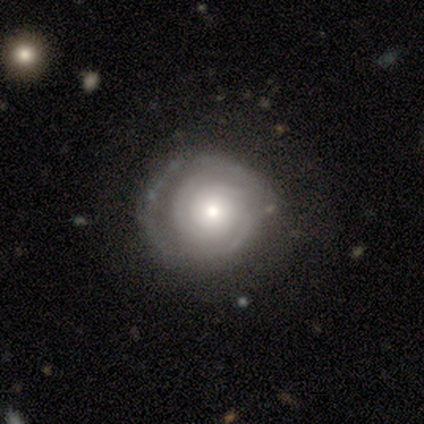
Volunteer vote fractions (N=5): featured or disk 100%, smooth 0%, star or artifact 0%. Down the decision tree: edge-on disk — no (100%); bar — no (100%); spiral arms — yes (100%); spiral arm count — 3 (40%, tied with 4); spiral winding — tight (100%); bulge size — moderate (40%, tied with small); merging — none (80%).